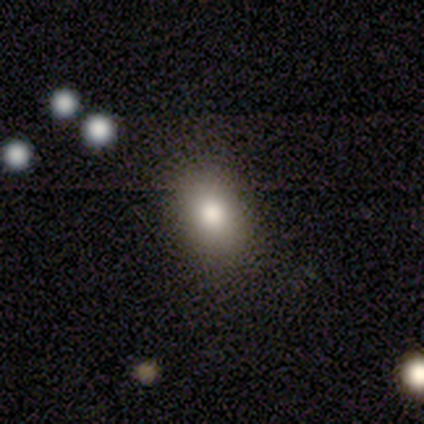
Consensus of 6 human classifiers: Volunteers were most divided on "smooth or featured": smooth: 67%, featured or disk: 33%, star or artifact: 0%. More confident: merging — none (100%); how rounded — in between (75%).